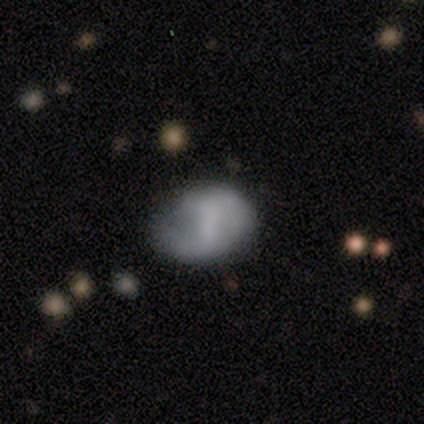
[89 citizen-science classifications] This is possibly a smooth galaxy (53%). How rounded: likely in between (77%). Merging: possibly none (57%).